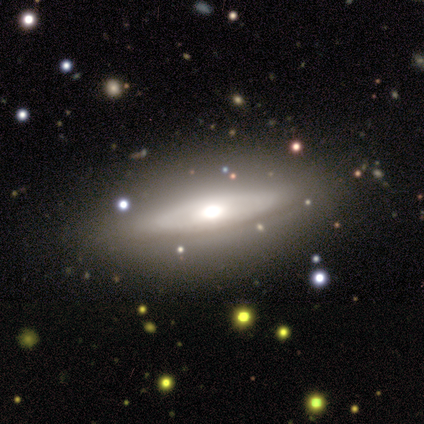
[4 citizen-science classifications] smooth_or_featured: featured or disk (p=1.00)
disk_edge_on: no (p=0.75) [alt: yes p=0.25]
bar: no (p=1.00)
has_spiral_arms: no (p=0.67) [alt: yes p=0.33]
bulge_size: large (p=0.67) [alt: moderate p=0.33]
merging: none (p=0.75) [alt: major disturbance p=0.25]